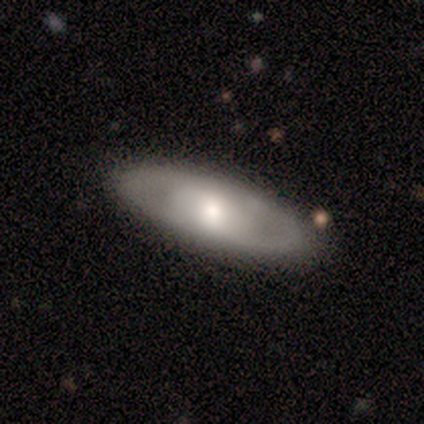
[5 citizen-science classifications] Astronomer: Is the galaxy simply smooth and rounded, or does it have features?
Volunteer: featured or disk — 80%.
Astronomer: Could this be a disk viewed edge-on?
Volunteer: no — 100%.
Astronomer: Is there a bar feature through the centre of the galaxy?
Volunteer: no — 75%.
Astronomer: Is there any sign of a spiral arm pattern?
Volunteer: no — 75%.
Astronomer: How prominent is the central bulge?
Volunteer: moderate — 100%.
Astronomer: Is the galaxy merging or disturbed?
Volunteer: none — 100%.